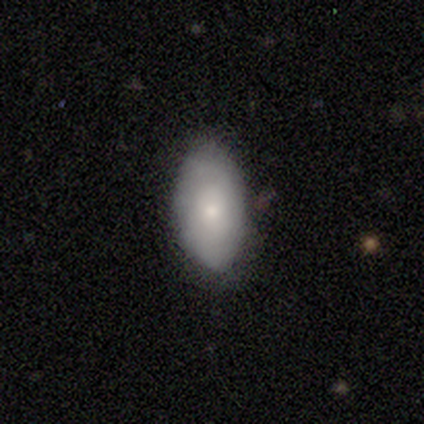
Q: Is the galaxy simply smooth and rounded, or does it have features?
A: smooth — 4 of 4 (100%).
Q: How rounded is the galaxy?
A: in between — 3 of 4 (75%).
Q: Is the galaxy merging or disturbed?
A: none — 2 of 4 (50%).